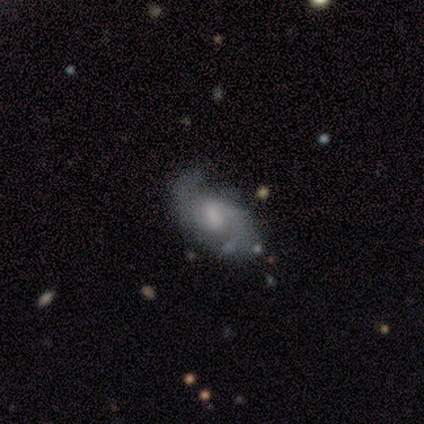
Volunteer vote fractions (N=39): A featured or disk galaxy (79%) with no bar (59%), 2 (81%) medium (46%) spiral arms (90%) and a small central bulge (41%). Merging: none (59%).